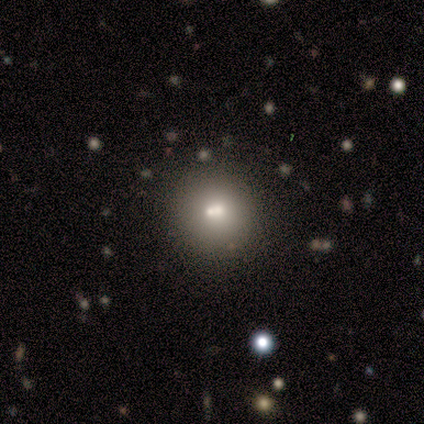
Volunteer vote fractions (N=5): This is marginally a smooth galaxy (40%, tied with featured or disk). How rounded: possibly round (50%, tied with in between). Merging: possibly merger (50%).